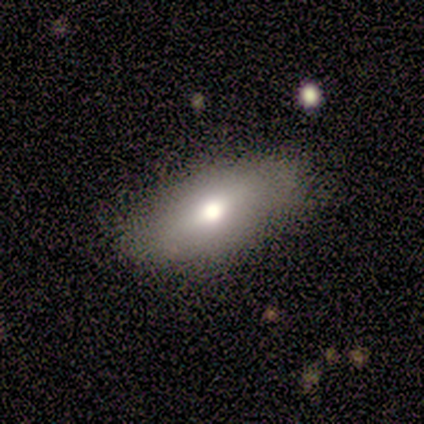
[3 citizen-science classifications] smooth_or_featured: featured or disk (p=0.67) [alt: smooth p=0.33]
disk_edge_on: yes (p=0.50) [tied with: no p=0.50]
edge_on_bulge: rounded (p=1.00)
merging: none (p=0.67) [alt: minor disturbance p=0.33]